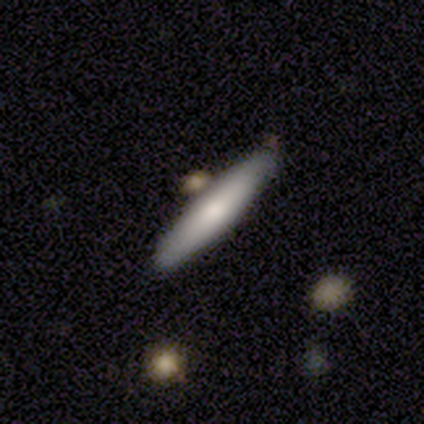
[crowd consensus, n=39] A smooth galaxy with no disk features (79%) that is cigar-shaped (94%).

Vote fractions:
- Smooth or featured? smooth: 79% / featured or disk: 18% / star or artifact: 3%
- How rounded? cigar-shaped: 94% / in between: 6% / round: 0%
- Merging? none: 74% / minor disturbance: 18% / merger: 8% / major disturbance: 0%